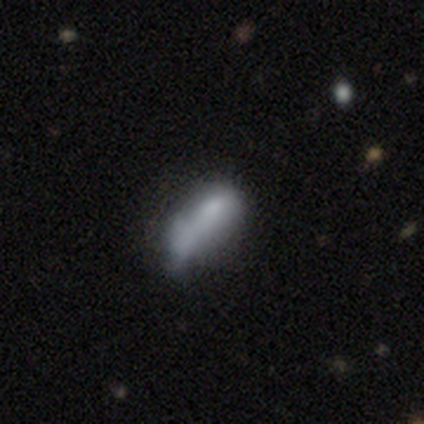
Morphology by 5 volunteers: This is clearly a smooth galaxy (100%). How rounded: clearly in between (80%). Merging: marginally merger (40%).